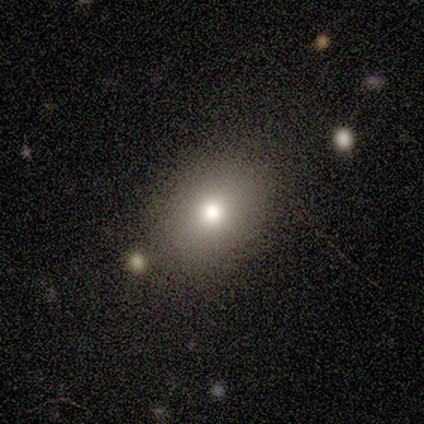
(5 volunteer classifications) This appears to be a smooth galaxy with no disk features (80%) that is round (75%). Merging: none (75%).